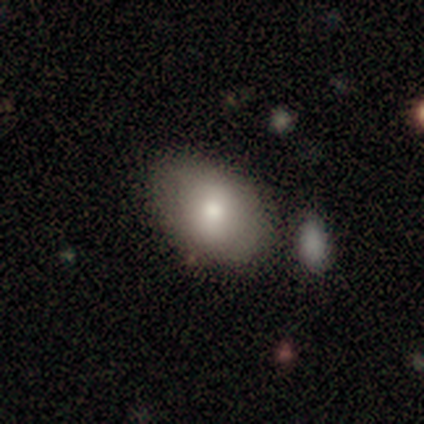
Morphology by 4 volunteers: smooth-or-featured: smooth: 100% | featured or disk: 0% | star or artifact: 0%
  how-rounded: in between: 100% | round: 0% | cigar-shaped: 0%
  merging: none: 75% | merger: 25% | minor disturbance: 0% | major disturbance: 0%